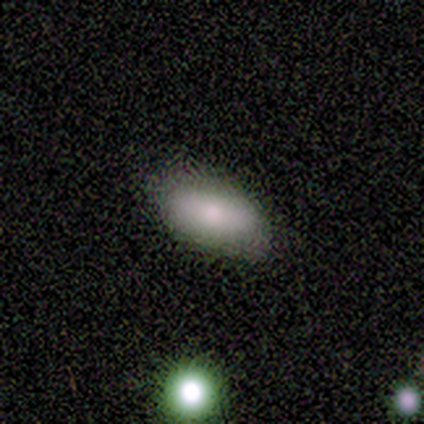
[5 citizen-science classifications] smooth 100%, featured or disk 0%, star or artifact 0%. Down the decision tree: how rounded — in between (100%); merging — none (60%).